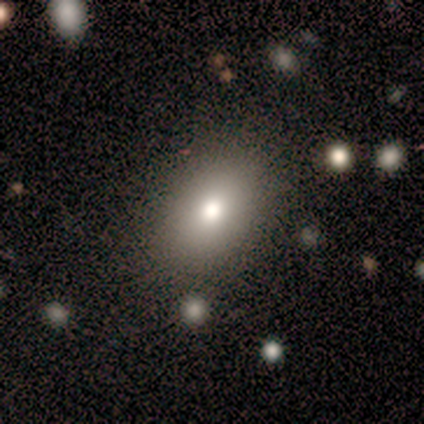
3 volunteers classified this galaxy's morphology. A featured or disk galaxy (67%) with no bar (100%), no spiral arms (100%) and a moderate central bulge (50%, tied with small). Merging: none (100%).